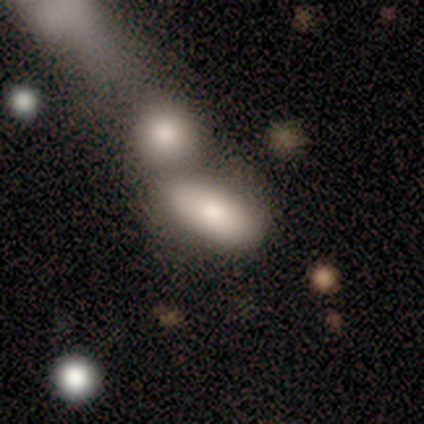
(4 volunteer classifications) smooth-or-featured: smooth: 100% | featured or disk: 0% | star or artifact: 0%
  how-rounded: in between: 100% | round: 0% | cigar-shaped: 0%
  merging: merger: 100% | none: 0% | minor disturbance: 0% | major disturbance: 0%